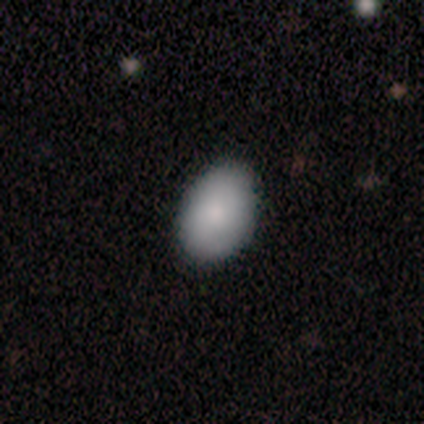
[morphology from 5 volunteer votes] A smooth galaxy with no disk features (100%) that is in between round and cigar-shaped (100%). Merging: none (100%).